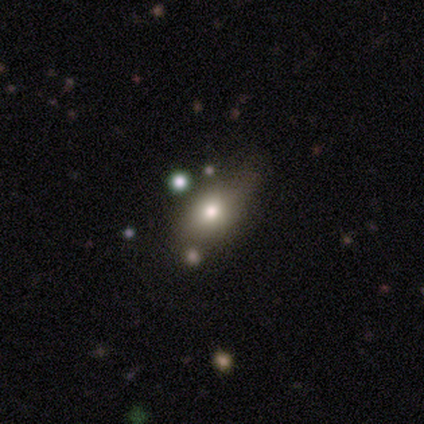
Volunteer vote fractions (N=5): Smooth or featured? 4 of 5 (80%) said smooth. How rounded? 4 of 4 (100%) said in between. Merging? 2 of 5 (40%, tied with minor disturbance) said none.